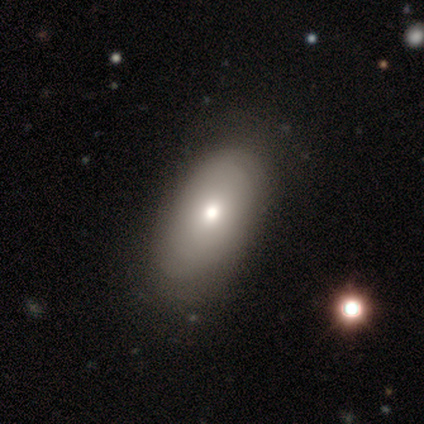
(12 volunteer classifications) smooth_or_featured: smooth (p=0.92) [alt: featured or disk p=0.08]
how_rounded: in between (p=1.00)
merging: none (p=1.00)